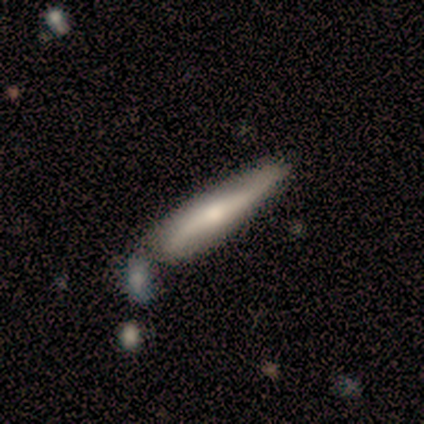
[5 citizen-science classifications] featured or disk 80%, smooth 20%, star or artifact 0%. Down the decision tree: edge-on disk — yes (100%); edge-on bulge — rounded (75%); merging — none (40%, tied with minor disturbance).